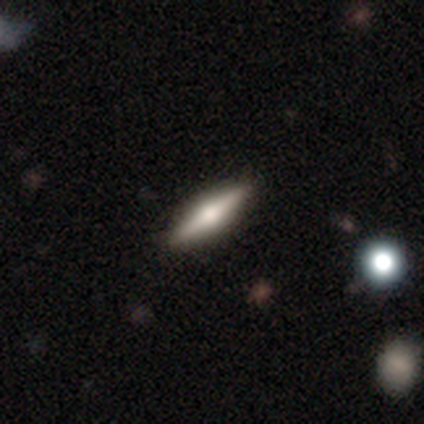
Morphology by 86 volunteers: Smooth or featured? featured or disk (64%)
Edge-on disk? yes (95%)
Edge-on bulge? rounded (92%)
Merging? none (94%)